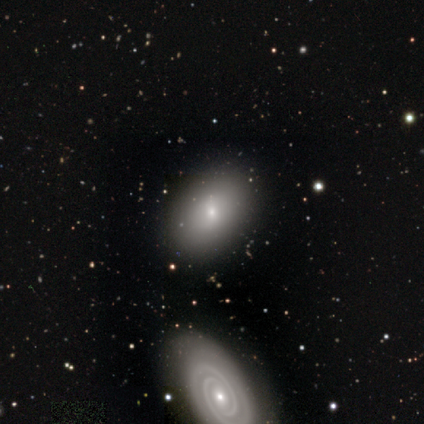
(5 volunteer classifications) This appears to be a featured or disk galaxy (60%) with no bar (67%), no spiral arms (67%) and a small central bulge (67%). Merging: none (100%).